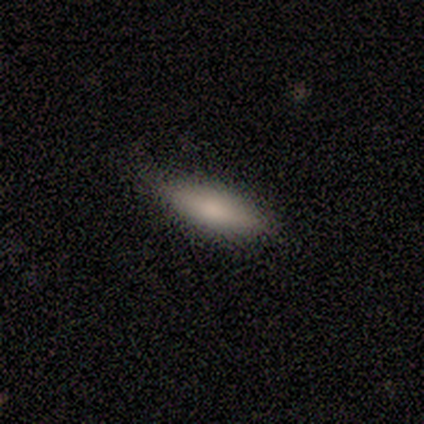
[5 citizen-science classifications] Volunteers were most divided on "how rounded" (2-way tie): in between: 50%, cigar-shaped: 50%, round: 0%. More confident: merging — none (100%); smooth or featured — smooth (80%).